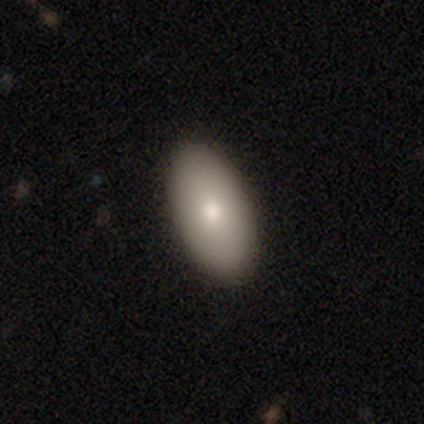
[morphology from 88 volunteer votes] smooth_or_featured: smooth (p=0.82) [alt: featured or disk p=0.14]
how_rounded: in between (p=0.97) [alt: cigar-shaped p=0.03]
merging: none (p=0.93) [alt: minor disturbance p=0.05]